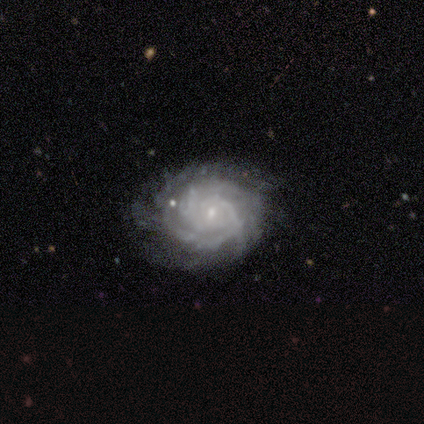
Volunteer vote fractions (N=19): smooth-or-featured: featured or disk: 95% | star or artifact: 5% | smooth: 0%
  disk-edge-on: no: 100% | yes: 0%
    bar: no: 78% | weak: 22% | strong: 0%
    has-spiral-arms: yes: 100% | no: 0%
      spiral-winding: tight: 72% | medium: 22% | loose: 6%
      spiral-arm-count: can't tell: 44% | 3: 22% | 2: 11% | 4: 11% | more than 4: 11% | 1: 0%
    bulge-size: small: 78% | moderate: 17% | none: 6% | dominant: 0% | large: 0%
  merging: none: 67% | major disturbance: 17% | minor disturbance: 11% | merger: 6%